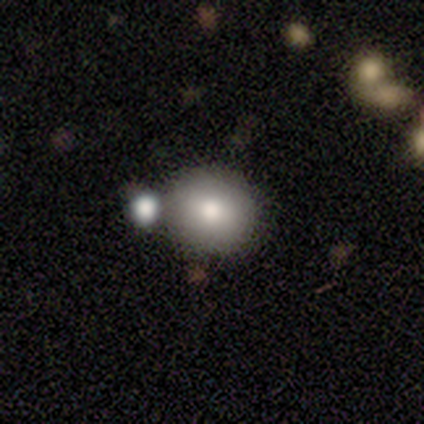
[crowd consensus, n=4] A smooth galaxy with no disk features (75%) that is round (100%).

Vote fractions:
- Smooth or featured? smooth: 75% / featured or disk: 25% / star or artifact: 0%
- How rounded? round: 100% / in between: 0% / cigar-shaped: 0%
- Merging? none: 50% (tied) / merger: 50% (tied) / minor disturbance: 0% / major disturbance: 0%